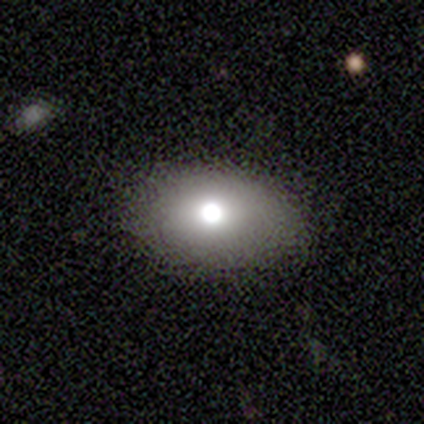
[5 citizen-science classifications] Smooth or featured?
  - smooth: 60% *
  - featured or disk: 20%
  - star or artifact: 20%
How rounded?
  - in between: 100% *
  - round: 0%
  - cigar-shaped: 0%
Merging?
  - none: 50% *
  - minor disturbance: 25%
  - major disturbance: 25%
  - merger: 0%